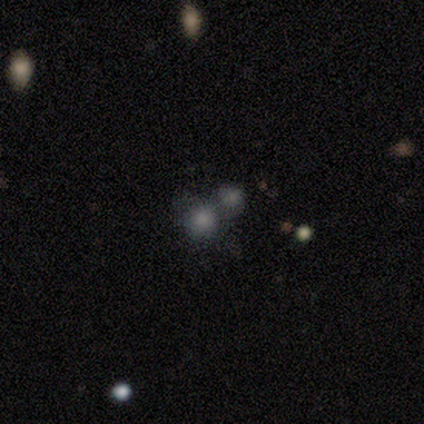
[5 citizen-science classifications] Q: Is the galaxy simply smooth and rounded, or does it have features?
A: smooth — 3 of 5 (60%).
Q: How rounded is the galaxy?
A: round — 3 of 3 (100%).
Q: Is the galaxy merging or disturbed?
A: merger — 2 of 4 (50%).